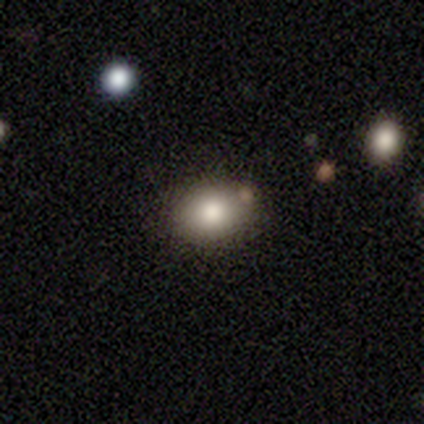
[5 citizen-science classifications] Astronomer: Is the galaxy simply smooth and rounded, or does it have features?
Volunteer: smooth — 100%.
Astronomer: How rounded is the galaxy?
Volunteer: in between — 60% (runner-up: round, 40%).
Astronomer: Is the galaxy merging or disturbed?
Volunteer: none — 40%, tied with merger at 40%.